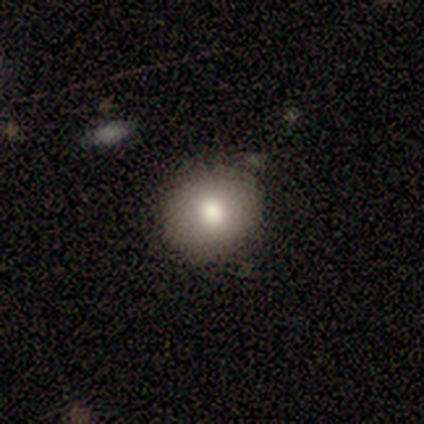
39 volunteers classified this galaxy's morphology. Smooth or featured?
  - smooth: 87% *
  - star or artifact: 8%
  - featured or disk: 5%
How rounded?
  - round: 68% *
  - in between: 32%
  - cigar-shaped: 0%
Merging?
  - none: 89% *
  - minor disturbance: 11%
  - major disturbance: 0%
  - merger: 0%